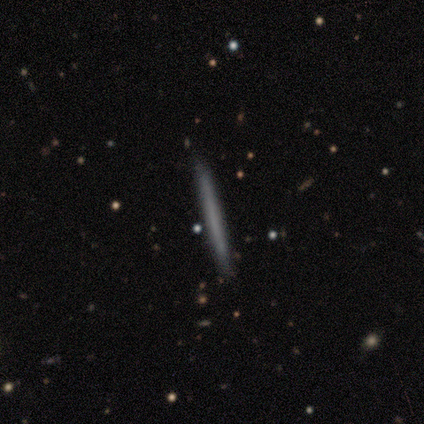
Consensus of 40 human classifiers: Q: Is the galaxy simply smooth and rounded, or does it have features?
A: smooth — 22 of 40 (55%).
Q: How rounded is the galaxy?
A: cigar-shaped — 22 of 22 (100%).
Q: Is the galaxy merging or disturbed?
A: none — 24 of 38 (63%).